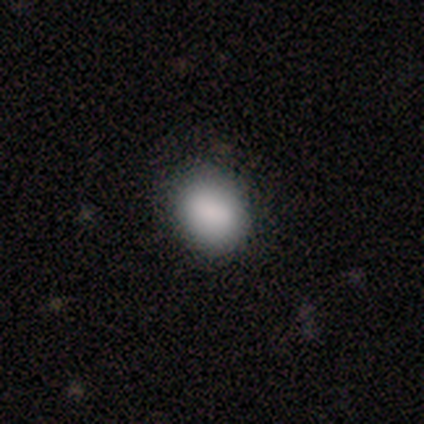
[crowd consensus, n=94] A smooth galaxy with no disk features (88%) that is in between round and cigar-shaped (53%).

Vote fractions:
- Smooth or featured? smooth: 88% / featured or disk: 6% / star or artifact: 5%
- How rounded? in between: 53% / round: 46% / cigar-shaped: 1%
- Merging? none: 80% / minor disturbance: 13% / major disturbance: 4% / merger: 2%